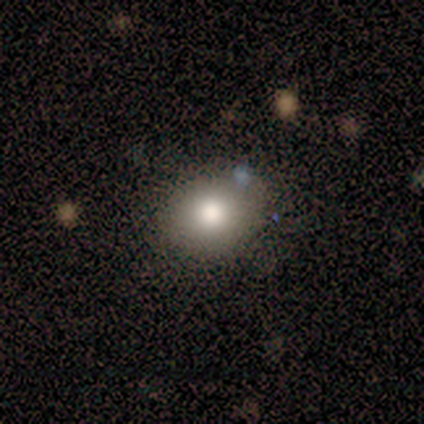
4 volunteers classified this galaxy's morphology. Q: Smooth or featured?
A: smooth (75%); runner-up: featured or disk (25%)
Q: How rounded?
A: round (67%); runner-up: in between (33%)
Q: Merging?
A: none (75%); runner-up: major disturbance (25%)